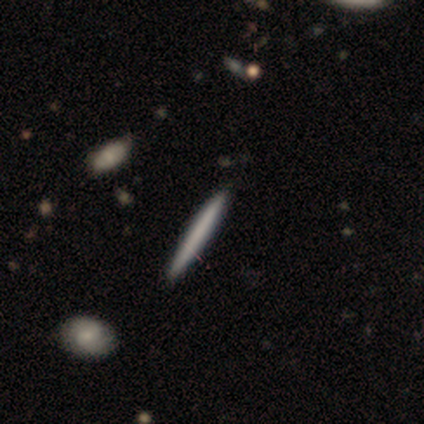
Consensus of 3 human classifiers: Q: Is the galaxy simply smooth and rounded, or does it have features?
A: smooth — 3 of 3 (100%).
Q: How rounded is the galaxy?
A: cigar-shaped — 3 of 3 (100%).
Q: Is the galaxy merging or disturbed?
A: none — 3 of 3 (100%).